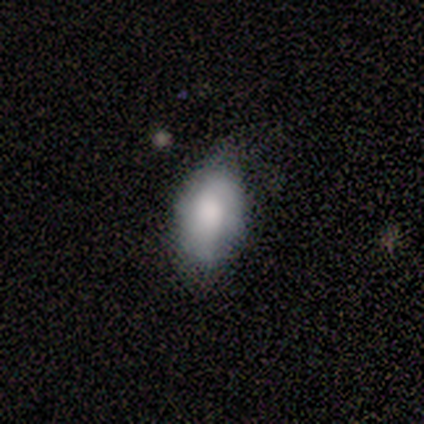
Smooth or featured? 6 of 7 (86%) said smooth. How rounded? 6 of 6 (100%) said in between. Merging? 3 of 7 (43%, tied with minor disturbance) said none.